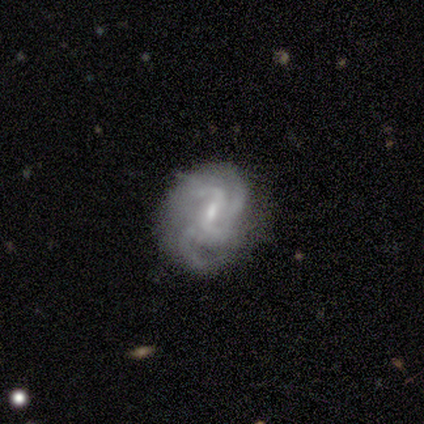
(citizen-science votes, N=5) Overall: featured or disk (100%). Edge-on disk: no (100%). Bar: strong (40%, tied with weak). Spiral arms: yes (100%). Spiral arm count: 4 (40%; 2 20%). Spiral winding: medium (80%). Bulge size: moderate (40%, tied with none). Merging: none (80%).